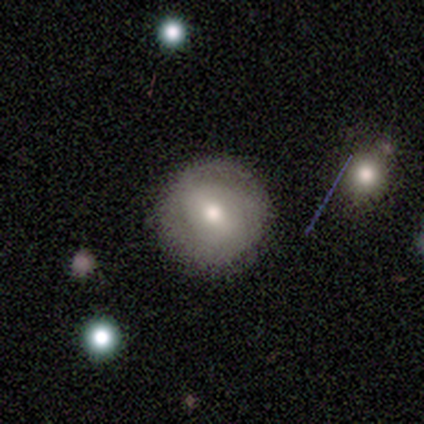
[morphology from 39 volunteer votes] Smooth or featured? 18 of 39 (46%) said smooth. How rounded? 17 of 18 (94%) said round. Merging? 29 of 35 (83%) said none.